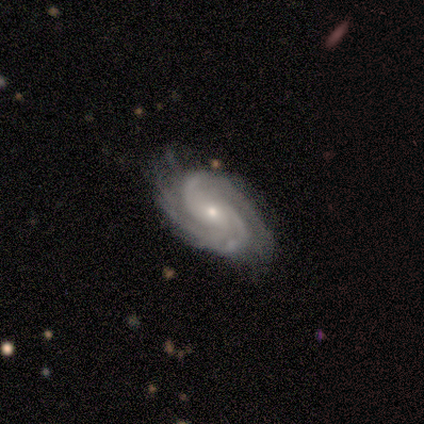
Morphology: type=featured or disk (100%); edge-on=no (100%); bar=no (60%); spiral arms=yes (90%); winding=tight (67%); arm count=2 (78%); bulge=small (50%); merging=none (80%).